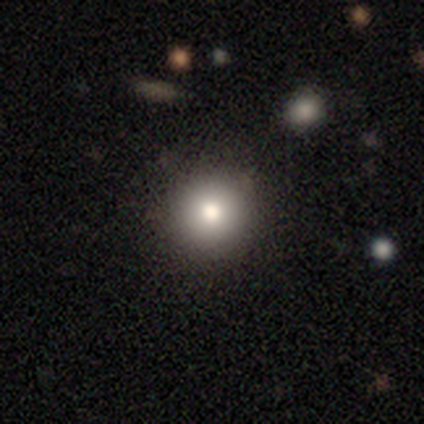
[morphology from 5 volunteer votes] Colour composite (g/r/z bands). It shows a smooth galaxy with no disk features (60%) that is round (100%). Merging: none (100%).